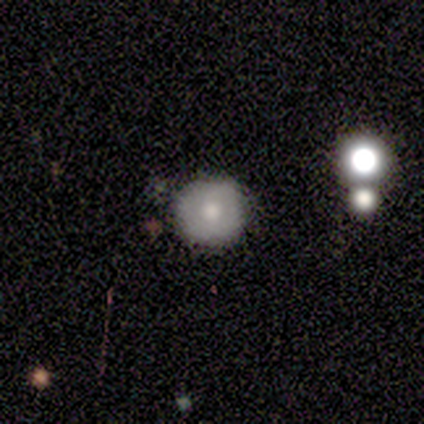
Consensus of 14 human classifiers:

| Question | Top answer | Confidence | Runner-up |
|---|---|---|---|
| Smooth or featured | smooth | 71% | featured or disk (14%) |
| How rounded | round | 90% | in between (10%) |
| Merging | none | 83% | minor disturbance (8%) |